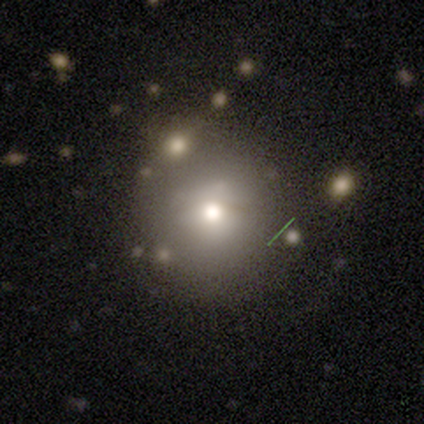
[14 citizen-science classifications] A smooth galaxy with no disk features (43%) that is round (100%).

Vote fractions:
- Smooth or featured? smooth: 43% / featured or disk: 29% / star or artifact: 29%
- How rounded? round: 100% / in between: 0% / cigar-shaped: 0%
- Merging? none: 50% / minor disturbance: 30% / merger: 20% / major disturbance: 0%